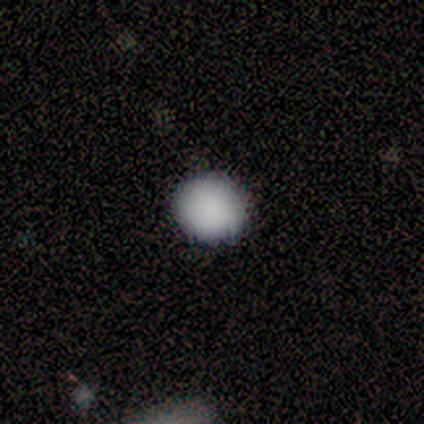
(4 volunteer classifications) Q: Smooth or featured?
A: smooth (75%); runner-up: star or artifact (25%)
Q: How rounded?
A: round (67%); runner-up: in between (33%)
Q: Merging?
A: none (100%)